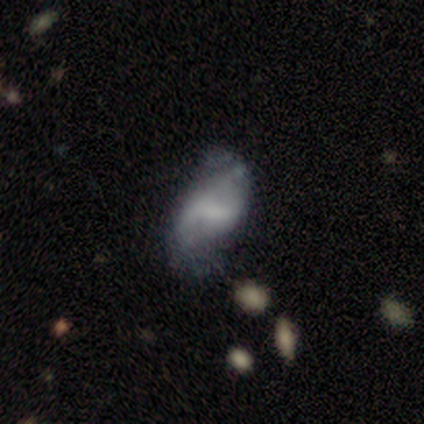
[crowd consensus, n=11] featured or disk 64%, smooth 36%, star or artifact 0%. Down the decision tree: edge-on disk — no (100%); bar — weak (43%); spiral arms — yes (86%); spiral arm count — 2 (67%); spiral winding — tight (33%, tied with medium and loose); bulge size — moderate (43%); merging — none (45%, tied with minor disturbance).